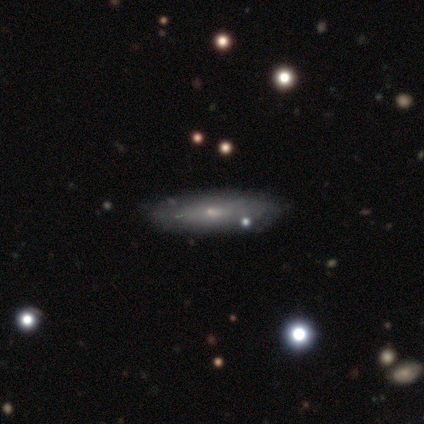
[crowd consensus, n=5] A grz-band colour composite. It shows a smooth galaxy with no disk features (60%) that is cigar-shaped (67%). Merging: minor disturbance (50%).